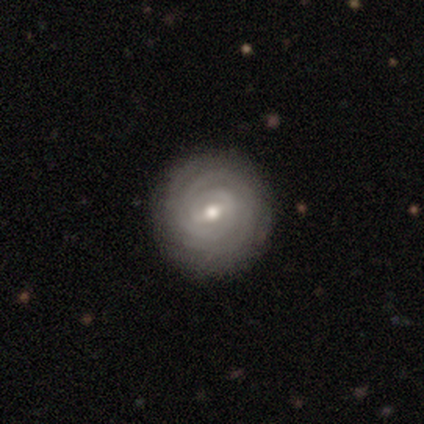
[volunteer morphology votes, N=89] smooth-or-featured: featured or disk: 85% | smooth: 13% | star or artifact: 1%
  disk-edge-on: no: 95% | yes: 5%
    bar: weak: 56% | no: 29% | strong: 15%
    has-spiral-arms: yes: 96% | no: 4%
      spiral-winding: tight: 96% | loose: 3% | medium: 1%
      spiral-arm-count: can't tell: 29% | 3: 25% | 2: 22% | more than 4: 12% | 4: 10% | 1: 3%
    bulge-size: moderate: 68% | small: 29% | large: 1% | none: 1% | dominant: 0%
  merging: none: 91% | minor disturbance: 7% | major disturbance: 1% | merger: 1%